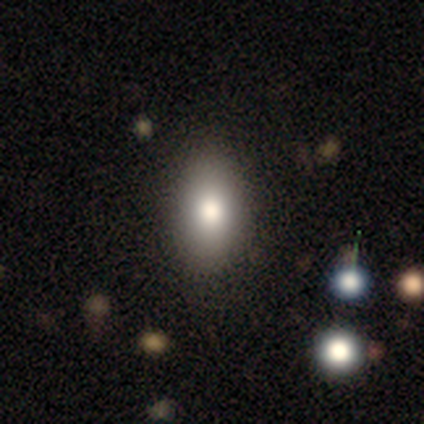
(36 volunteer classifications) A smooth galaxy with no disk features (69%) that is in between round and cigar-shaped (88%).

Vote fractions:
- Smooth or featured? smooth: 69% / featured or disk: 19% / star or artifact: 11%
- How rounded? in between: 88% / round: 8% / cigar-shaped: 4%
- Merging? none: 91% / major disturbance: 6% / merger: 3% / minor disturbance: 0%